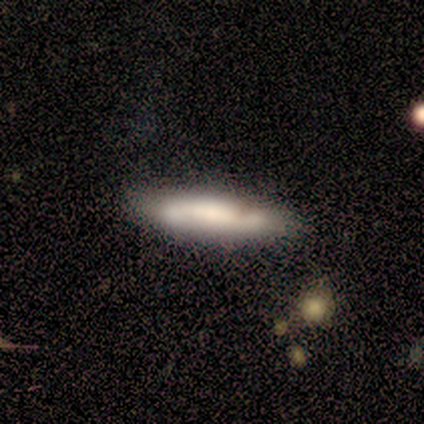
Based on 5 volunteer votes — This appears to be a smooth galaxy with no disk features (80%) that is cigar-shaped (100%). Merging: none (75%).